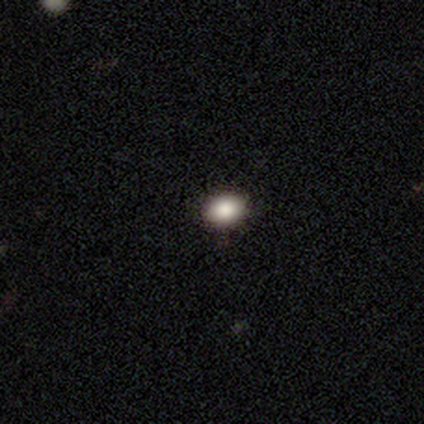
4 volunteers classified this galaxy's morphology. Smooth or featured: smooth — 100%
How rounded: round — 50% (tied with in between — 50%)
Merging: none — 100%